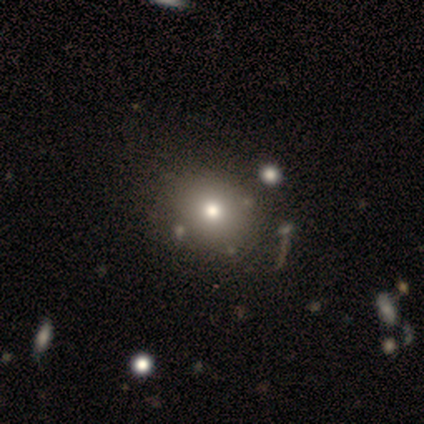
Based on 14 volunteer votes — Morphology: type=smooth (86%); roundness=in between (67%); merging=none (77%).